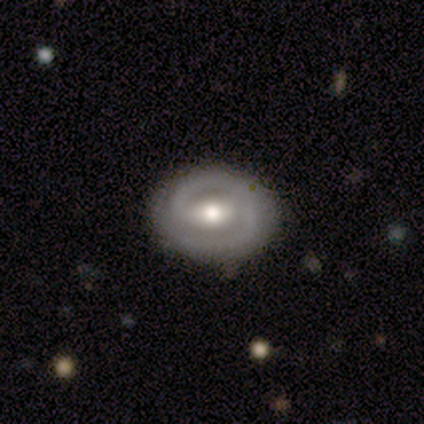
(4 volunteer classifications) Smooth or featured? 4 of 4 (100%) said featured or disk. Edge-on disk? 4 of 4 (100%) said no. Bar? 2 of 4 (50%, tied with weak) said strong. Spiral arms? 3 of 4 (75%) said yes. Spiral winding? 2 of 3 (67%) said medium. Spiral arm count? 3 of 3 (100%) said 2. Bulge size? 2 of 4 (50%) said moderate. Merging? 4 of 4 (100%) said none.